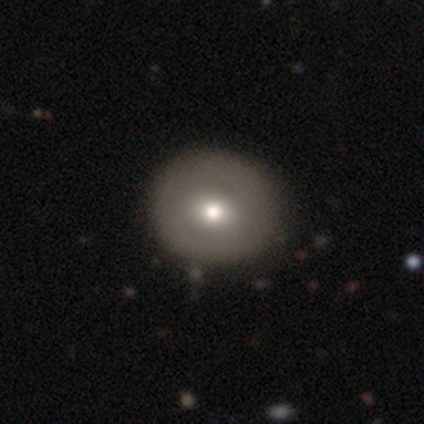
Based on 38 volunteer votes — Smooth or featured? 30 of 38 (79%) said smooth. How rounded? 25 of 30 (83%) said round. Merging? 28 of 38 (74%) said none.